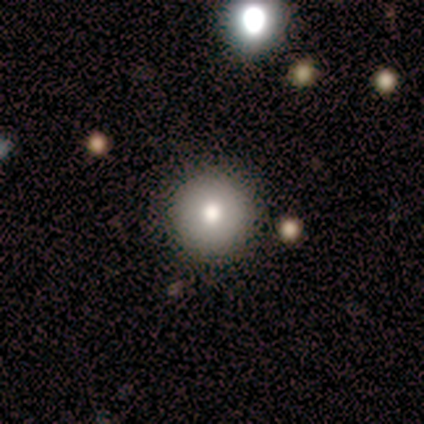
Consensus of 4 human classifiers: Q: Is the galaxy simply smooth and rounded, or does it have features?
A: smooth — 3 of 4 (75%).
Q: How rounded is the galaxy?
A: round — 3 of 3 (100%).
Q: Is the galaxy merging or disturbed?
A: none — 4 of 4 (100%).